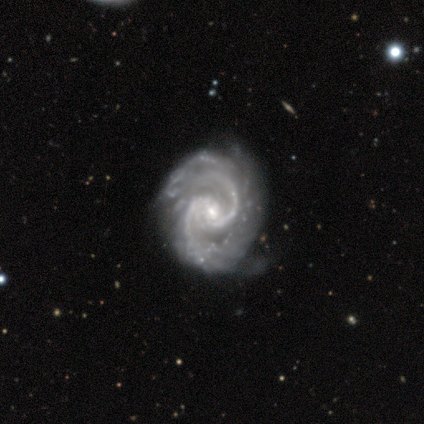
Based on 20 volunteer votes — Smooth or featured: featured or disk — 95% (star or artifact — 5%)
Edge-on disk: no — 100%
Bar: weak — 58% (strong — 21%)
Spiral arms: yes — 95% (no — 5%)
Spiral winding: medium — 61% (tight — 39%)
Spiral arm count: 2 — 94% (3 — 6%)
Bulge size: small — 79% (moderate — 16%)
Merging: none — 84% (minor disturbance — 11%)